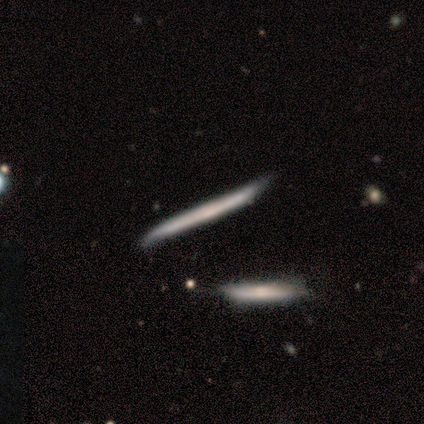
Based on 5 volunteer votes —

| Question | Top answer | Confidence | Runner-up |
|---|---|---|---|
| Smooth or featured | featured or disk | 100% | — |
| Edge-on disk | yes | 100% | — |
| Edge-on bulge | none | 100% | — |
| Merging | minor disturbance | 80% | none (20%) |